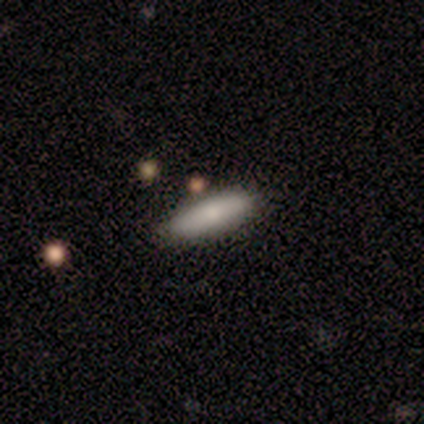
A smooth galaxy with no disk features (100%) that is in between round and cigar-shaped (50%, tied with cigar-shaped). Merging: none (100%).